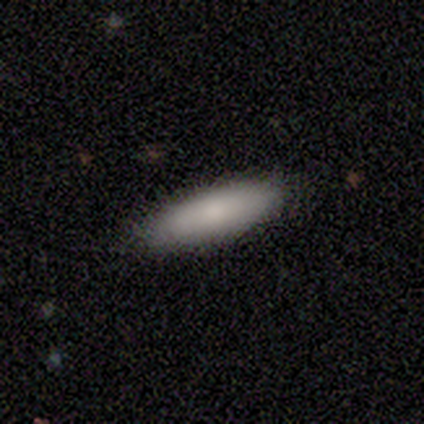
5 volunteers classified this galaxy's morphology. Q: Smooth or featured?
A: smooth (100%)
Q: How rounded?
A: cigar-shaped (80%); runner-up: in between (20%)
Q: Merging?
A: none (80%); runner-up: minor disturbance (20%)